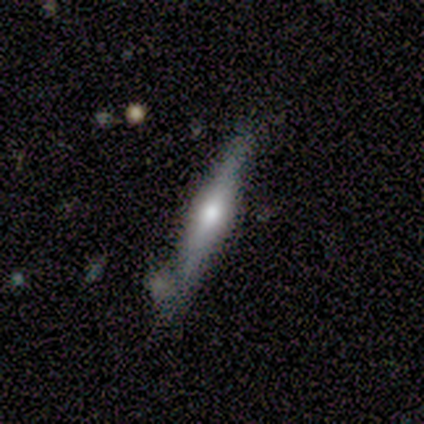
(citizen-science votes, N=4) A featured or disk galaxy (75%) viewed edge-on (100%) with a rounded central bulge (67%). Merging: none (75%).